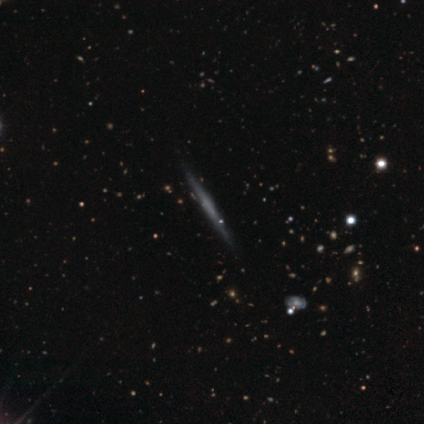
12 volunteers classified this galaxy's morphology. Q: Smooth or featured?
A: featured or disk (83%); runner-up: smooth (17%)
Q: Edge-on disk?
A: yes (100%)
Q: Edge-on bulge?
A: none (50%); runner-up: rounded (40%)
Q: Merging?
A: none (92%); runner-up: minor disturbance (8%)